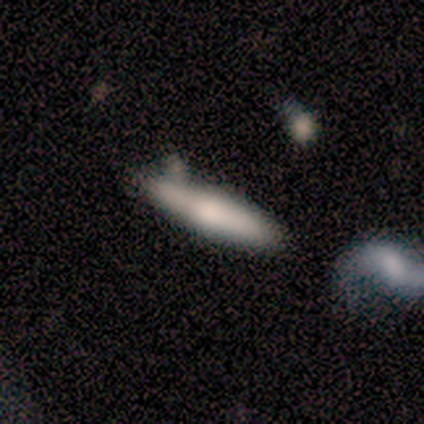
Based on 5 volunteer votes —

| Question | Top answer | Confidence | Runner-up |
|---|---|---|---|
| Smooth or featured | smooth | 100% | — |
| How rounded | cigar-shaped | 80% | in between (20%) |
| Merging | none | 60% | minor disturbance (40%) |